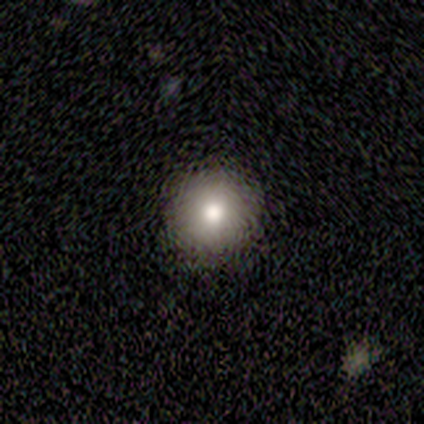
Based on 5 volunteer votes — smooth 80%, featured or disk 20%, star or artifact 0%. Down the decision tree: how rounded — round (100%); merging — none (100%).